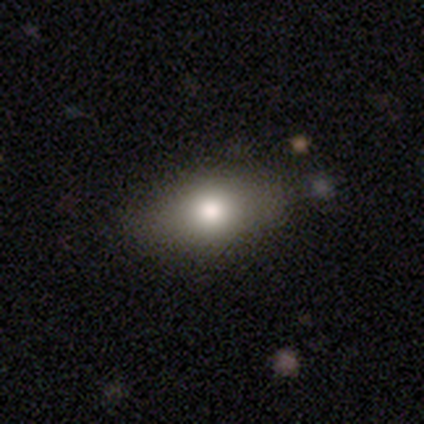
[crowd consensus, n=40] Volunteers were most divided on "how rounded": in between: 71%, cigar-shaped: 16%, round: 13%. More confident: merging — none (83%); smooth or featured — smooth (78%).